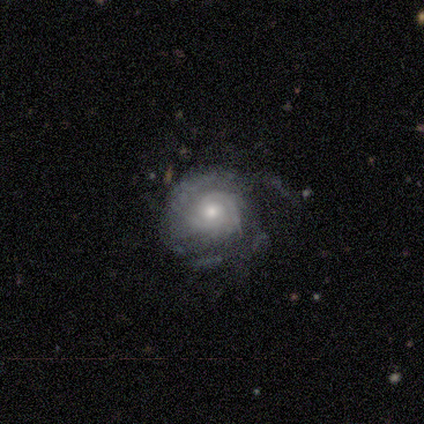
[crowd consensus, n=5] smooth-or-featured: featured or disk: 80% | smooth: 20% | star or artifact: 0%
  disk-edge-on: no: 100% | yes: 0%
    bar: weak: 50% (tied) | no: 50% (tied) | strong: 0%
    has-spiral-arms: yes: 100% | no: 0%
      spiral-winding: tight: 100% | medium: 0% | loose: 0%
      spiral-arm-count: 2: 50% (tied) | can't tell: 50% (tied) | 1: 0% | 3: 0% | 4: 0% | more than 4: 0%
    bulge-size: moderate: 50% | small: 25% | none: 25% | dominant: 0% | large: 0%
  merging: none: 40% (tied) | minor disturbance: 40% (tied) | major disturbance: 20% | merger: 0%